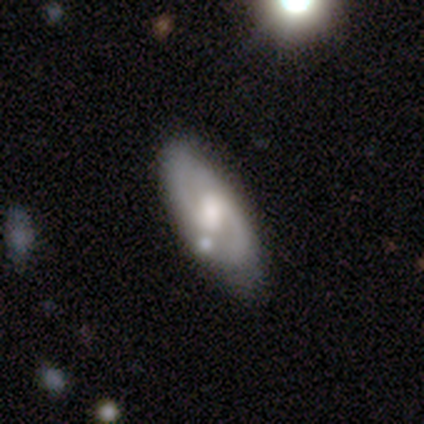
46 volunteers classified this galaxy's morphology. Smooth or featured? featured or disk (74%)
Edge-on disk? no (88%)
Bar? weak (50%)
Spiral arms? yes (97%)
Spiral winding? medium (41%)
Spiral arm count? 2 (100%)
Bulge size? moderate (77%)
Merging? none (67%)